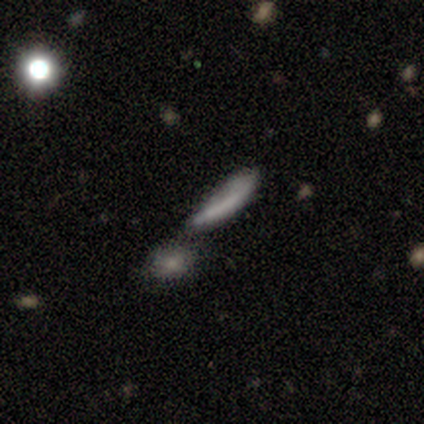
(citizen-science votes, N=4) Smooth or featured: smooth — 75% (star or artifact — 25%)
How rounded: in between — 67% (cigar-shaped — 33%)
Merging: merger — 100%